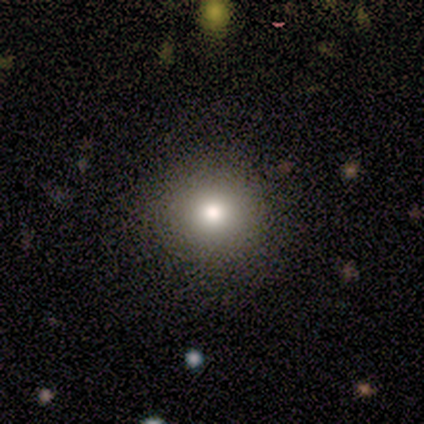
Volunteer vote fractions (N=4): Volunteers were most divided on "smooth or featured": smooth: 75%, featured or disk: 25%, star or artifact: 0%. More confident: how rounded — round (100%); merging — none (100%).